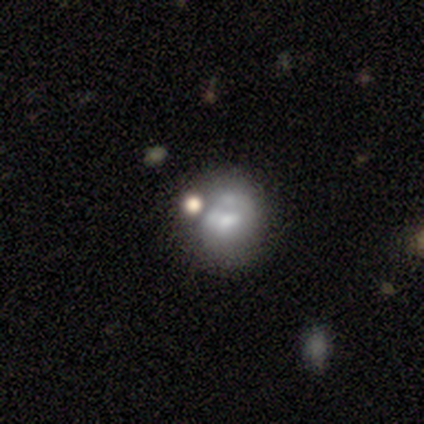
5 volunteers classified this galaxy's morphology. Smooth or featured?
  - featured or disk: 60% *
  - smooth: 40%
  - star or artifact: 0%
Edge-on disk?
  - no: 100% *
  - yes: 0%
Bar?
  - no: 67% *
  - weak: 33%
  - strong: 0%
Spiral arms?
  - no: 100% *
  - yes: 0%
Bulge size?
  - none: 67% *
  - moderate: 33%
  - dominant: 0%
  - large: 0%
  - small: 0%
Merging?
  - none: 40% * (tied)
  - major disturbance: 40% * (tied)
  - minor disturbance: 20%
  - merger: 0%